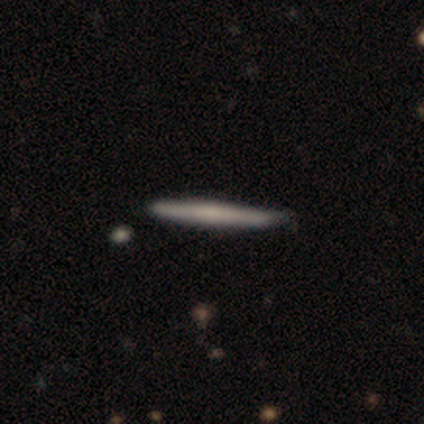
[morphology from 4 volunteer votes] Volunteers were most divided on "smooth or featured" (2-way tie): smooth: 50%, featured or disk: 50%, star or artifact: 0%; "merging" (2-way tie): none: 50%, minor disturbance: 50%, major disturbance: 0%, merger: 0%. More confident: how rounded — cigar-shaped (100%).